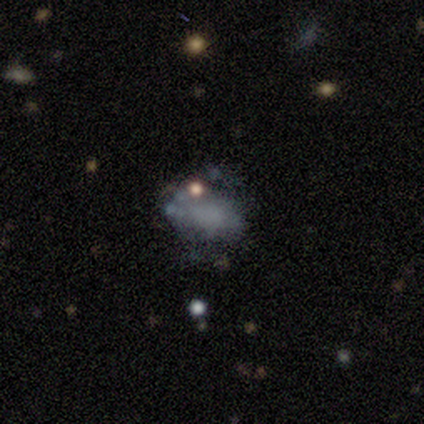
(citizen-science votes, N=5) Smooth or featured? smooth (40%, tied with featured or disk)
How rounded? in between (100%)
Merging? minor disturbance (50%)